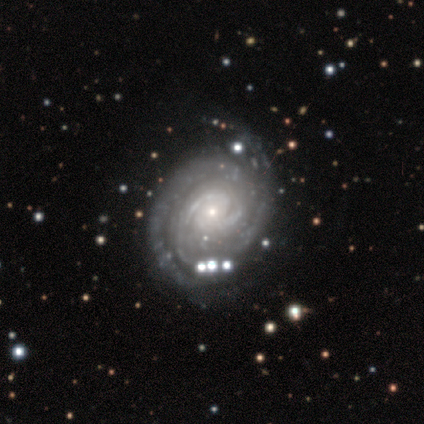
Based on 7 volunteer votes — This appears to be a featured or disk galaxy (100%) with no bar (57%), 2 (86%) tight (86%) spiral arms (100%) and a small central bulge (57%). Merging: none (71%).